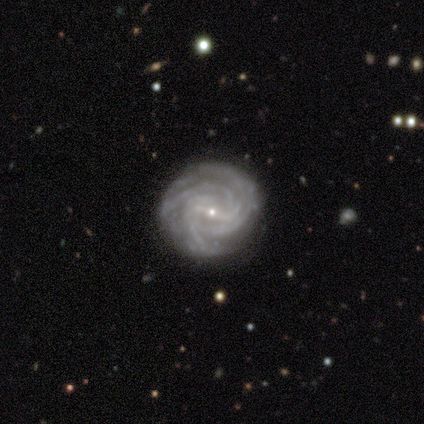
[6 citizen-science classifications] Smooth or featured? 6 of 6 (100%) said featured or disk. Edge-on disk? 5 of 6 (83%) said no. Bar? 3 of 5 (60%) said weak. Spiral arms? 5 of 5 (100%) said yes. Spiral winding? 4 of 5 (80%) said tight. Spiral arm count? 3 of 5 (60%) said can't tell. Bulge size? 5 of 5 (100%) said small. Merging? 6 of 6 (100%) said none.